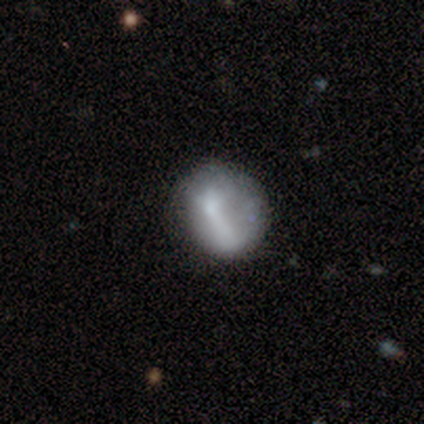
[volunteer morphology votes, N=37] Volunteers were most divided on "smooth or featured": smooth: 51%, featured or disk: 43%, star or artifact: 5%. Remaining: how rounded — round (74%); merging — none (43%).